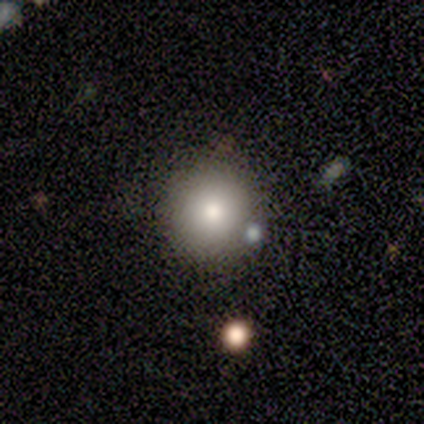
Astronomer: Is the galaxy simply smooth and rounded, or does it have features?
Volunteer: smooth — 100%.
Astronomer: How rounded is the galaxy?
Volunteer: round — 100%.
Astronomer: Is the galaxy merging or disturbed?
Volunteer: none — 100%.